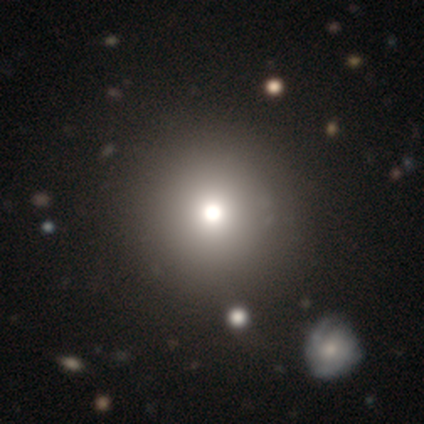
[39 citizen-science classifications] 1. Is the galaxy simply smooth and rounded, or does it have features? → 79% smooth, 13% star or artifact, 8% featured or disk.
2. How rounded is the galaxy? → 94% round, 6% in between, 0% cigar-shaped.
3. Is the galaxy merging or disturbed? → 62% none, 6% minor disturbance, 6% major disturbance, 3% merger.